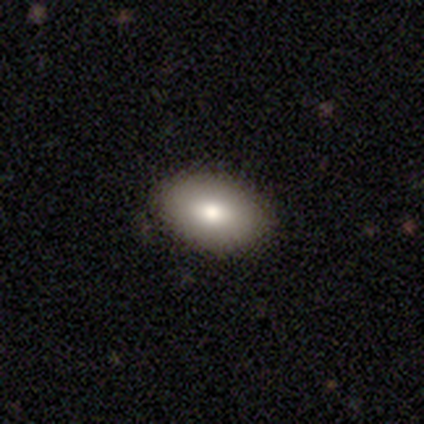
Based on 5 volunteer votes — A smooth galaxy with no disk features (80%) that is in between round and cigar-shaped (100%).

Vote fractions:
- Smooth or featured? smooth: 80% / featured or disk: 20% / star or artifact: 0%
- How rounded? in between: 100% / round: 0% / cigar-shaped: 0%
- Merging? none: 80% / minor disturbance: 20% / major disturbance: 0% / merger: 0%